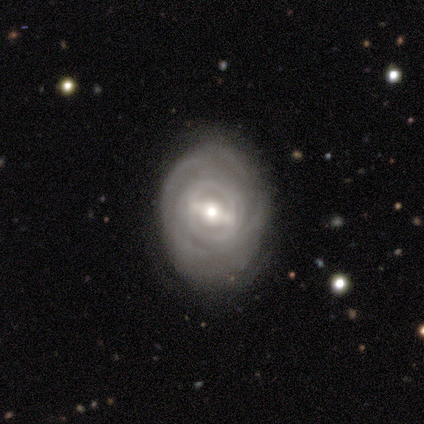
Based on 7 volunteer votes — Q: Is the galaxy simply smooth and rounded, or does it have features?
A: featured or disk — 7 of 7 (100%).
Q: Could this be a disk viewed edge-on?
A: no — 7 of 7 (100%).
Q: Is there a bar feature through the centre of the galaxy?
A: strong — 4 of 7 (57%).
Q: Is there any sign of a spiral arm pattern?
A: yes — 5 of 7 (71%).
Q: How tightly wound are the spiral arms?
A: tight — 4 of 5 (80%).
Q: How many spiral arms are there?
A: can't tell — 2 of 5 (40%).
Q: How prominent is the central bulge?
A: small — 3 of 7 (43%).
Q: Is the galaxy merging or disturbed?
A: none — 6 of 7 (86%).